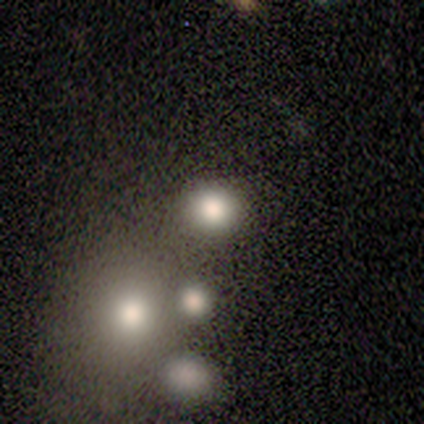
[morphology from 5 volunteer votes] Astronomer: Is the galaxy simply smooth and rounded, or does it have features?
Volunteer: smooth — 80%.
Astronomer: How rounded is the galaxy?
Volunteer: round — 100%.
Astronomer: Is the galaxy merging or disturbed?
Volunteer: none — 100%.